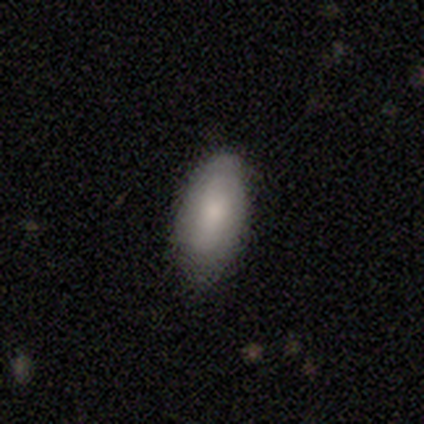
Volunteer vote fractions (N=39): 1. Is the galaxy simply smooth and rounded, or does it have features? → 85% smooth, 8% featured or disk, 8% star or artifact.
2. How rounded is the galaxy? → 91% in between, 6% cigar-shaped, 3% round.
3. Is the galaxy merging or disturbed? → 58% none, 33% minor disturbance, 8% major disturbance, 0% merger.